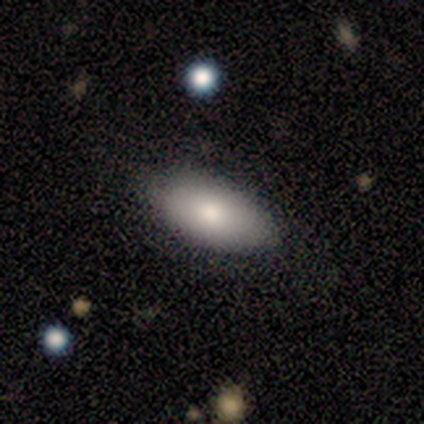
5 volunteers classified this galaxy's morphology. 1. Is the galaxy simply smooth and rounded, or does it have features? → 100% smooth, 0% featured or disk, 0% star or artifact.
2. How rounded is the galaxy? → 80% in between, 20% round, 0% cigar-shaped.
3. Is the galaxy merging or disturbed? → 80% none, 20% minor disturbance, 0% major disturbance, 0% merger.